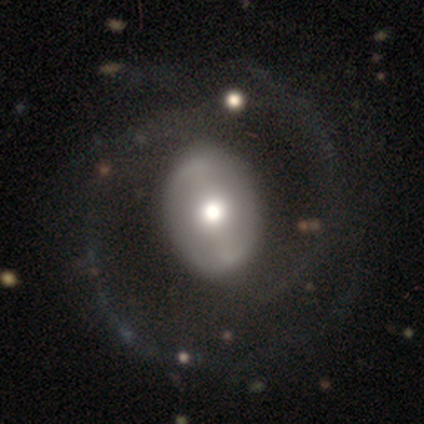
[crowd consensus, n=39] Smooth or featured: featured or disk — 72% (smooth — 26%)
Edge-on disk: no — 100%
Bar: no — 57% (strong — 32%)
Spiral arms: yes — 57% (no — 43%)
Spiral winding: medium — 50% (tight — 25%)
Spiral arm count: 2 — 69% (3 — 12%)
Bulge size: moderate — 68% (large — 29%)
Merging: none — 45% (major disturbance — 26%)